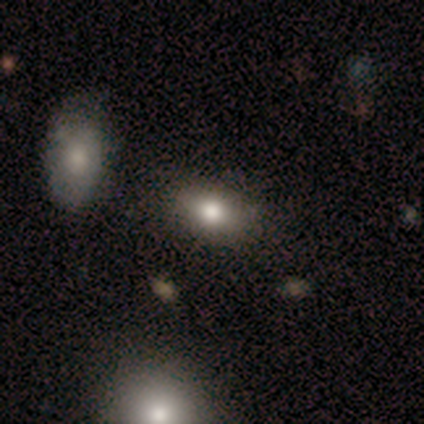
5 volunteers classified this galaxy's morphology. smooth-or-featured: smooth: 60% | star or artifact: 40% | featured or disk: 0%
  how-rounded: in between: 67% | cigar-shaped: 33% | round: 0%
  merging: none: 100% | minor disturbance: 0% | major disturbance: 0% | merger: 0%